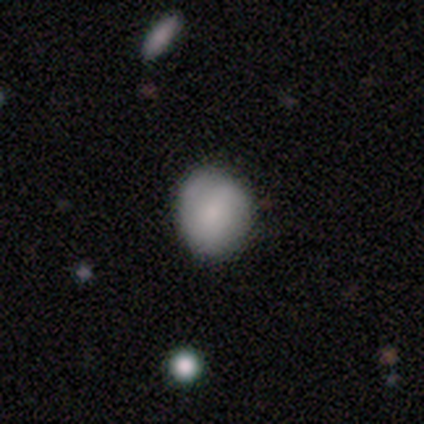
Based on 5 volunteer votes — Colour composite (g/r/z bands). It shows a smooth galaxy with no disk features (100%) that is round (100%). Merging: none (100%).